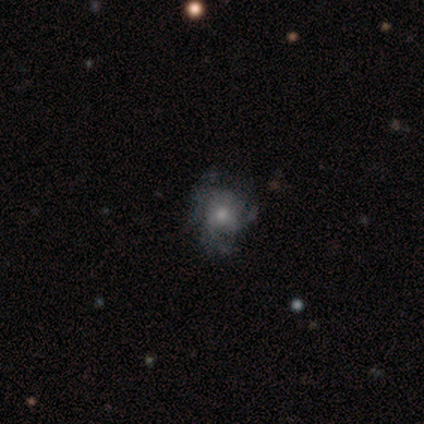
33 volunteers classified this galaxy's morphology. featured or disk 64%, smooth 21%, star or artifact 15%. Down the decision tree: edge-on disk — no (100%); bar — no (90%); spiral arms — yes (76%); spiral arm count — 3 (69%); spiral winding — tight (44%, tied with medium); bulge size — moderate (52%); merging — none (43%).